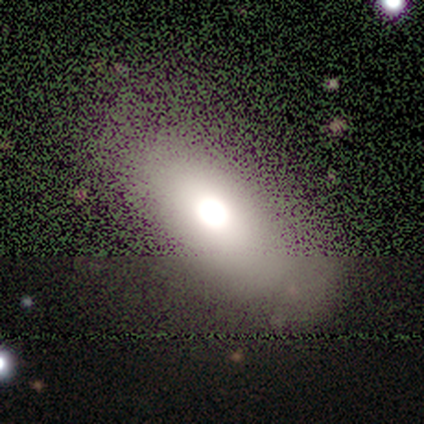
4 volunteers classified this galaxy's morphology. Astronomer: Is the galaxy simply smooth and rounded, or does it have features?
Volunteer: smooth — 100%.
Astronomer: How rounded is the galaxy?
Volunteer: in between — 75%.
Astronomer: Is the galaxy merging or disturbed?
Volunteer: none — 100%.